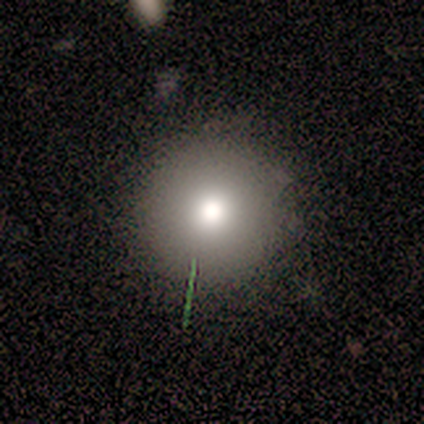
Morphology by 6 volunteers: Smooth or featured?
  - smooth: 100% *
  - featured or disk: 0%
  - star or artifact: 0%
How rounded?
  - round: 100% *
  - in between: 0%
  - cigar-shaped: 0%
Merging?
  - none: 83% *
  - minor disturbance: 17%
  - major disturbance: 0%
  - merger: 0%